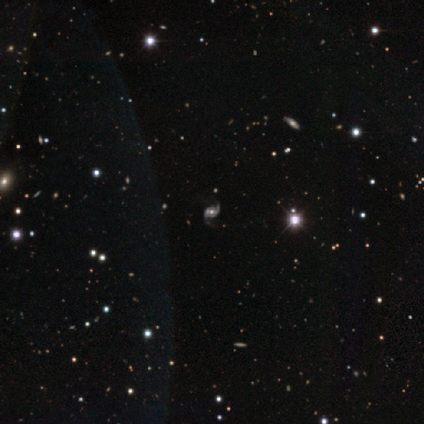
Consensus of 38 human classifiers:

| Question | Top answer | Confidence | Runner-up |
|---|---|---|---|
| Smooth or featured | featured or disk | 89% | star or artifact (11%) |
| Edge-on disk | no | 100% | — |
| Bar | no | 50% | weak (32%) |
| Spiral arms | yes | 100% | — |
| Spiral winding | loose | 50% | medium (35%) |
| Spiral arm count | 2 | 94% | 1 (3%) |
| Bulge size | moderate | 59% | small (24%) |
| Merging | none | 62% | minor disturbance (6%) |